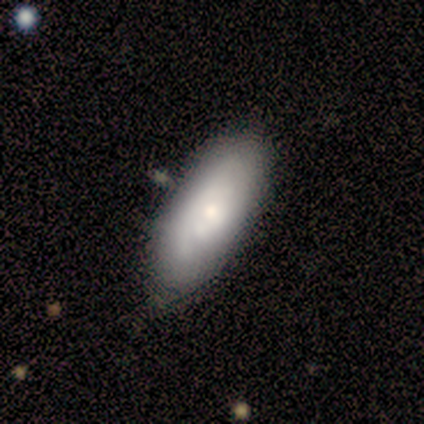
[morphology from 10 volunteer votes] smooth_or_featured: featured or disk (p=0.50) [alt: smooth p=0.40]
disk_edge_on: no (p=1.00)
bar: no (p=1.00)
has_spiral_arms: yes (p=0.80) [alt: no p=0.20]
spiral_winding: tight (p=0.75) [alt: medium p=0.25]
spiral_arm_count: can't tell (p=0.75) [alt: 2 p=0.25]
bulge_size: moderate (p=0.60) [alt: small p=0.40]
merging: none (p=0.78) [alt: minor disturbance p=0.22]